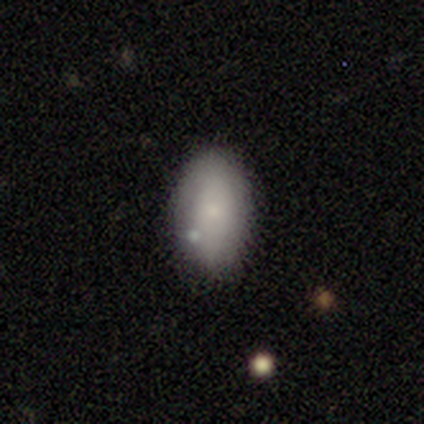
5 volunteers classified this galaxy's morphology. A smooth galaxy with no disk features (100%) that is in between round and cigar-shaped (100%).

Vote fractions:
- Smooth or featured? smooth: 100% / featured or disk: 0% / star or artifact: 0%
- How rounded? in between: 100% / round: 0% / cigar-shaped: 0%
- Merging? none: 100% / minor disturbance: 0% / major disturbance: 0% / merger: 0%